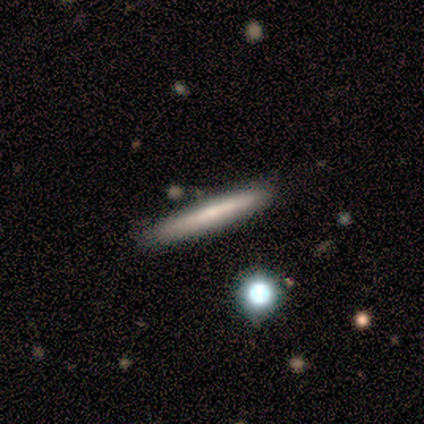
smooth_or_featured: smooth (p=0.80) [alt: star or artifact p=0.20]
how_rounded: cigar-shaped (p=1.00)
merging: none (p=1.00)